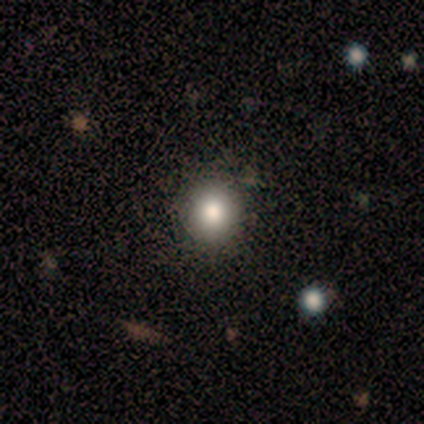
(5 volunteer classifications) smooth-or-featured: smooth: 80% | featured or disk: 20% | star or artifact: 0%
  how-rounded: round: 100% | in between: 0% | cigar-shaped: 0%
  merging: none: 100% | minor disturbance: 0% | major disturbance: 0% | merger: 0%